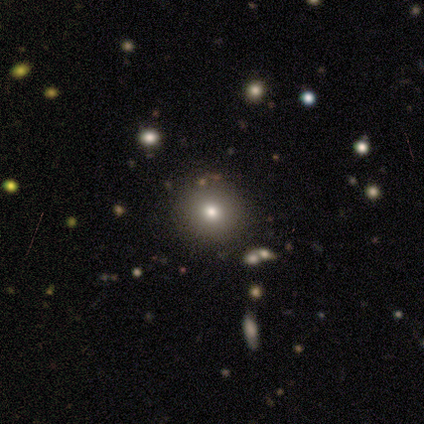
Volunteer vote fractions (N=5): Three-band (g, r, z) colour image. It shows a smooth galaxy with no disk features (60%) that is round (100%). Merging: none (100%).